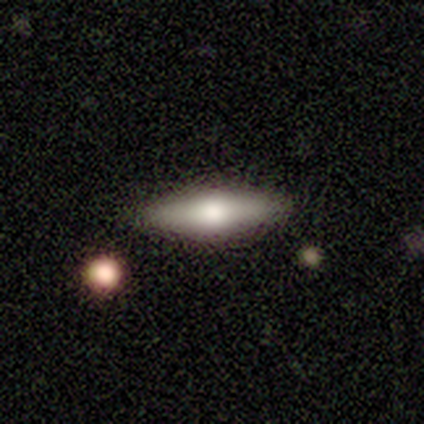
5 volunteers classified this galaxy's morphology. smooth-or-featured: smooth: 80% | featured or disk: 20% | star or artifact: 0%
  how-rounded: cigar-shaped: 75% | in between: 25% | round: 0%
  merging: none: 100% | minor disturbance: 0% | major disturbance: 0% | merger: 0%